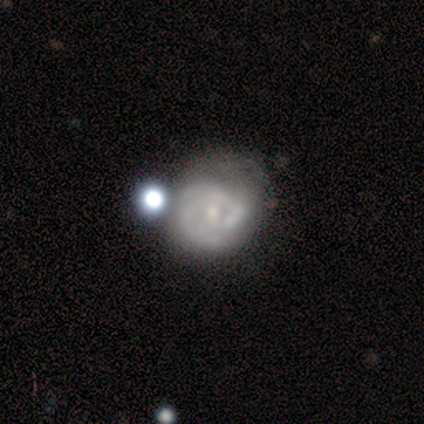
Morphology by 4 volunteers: Overall: featured or disk (75%). Edge-on disk: no (100%). Bar: weak (67%; no 33%). Spiral arms: yes (67%; no 33%). Spiral arm count: 1 (50%, tied with 2). Spiral winding: tight (100%). Bulge size: moderate (67%; small 33%). Merging: none (50%; minor disturbance 25%).